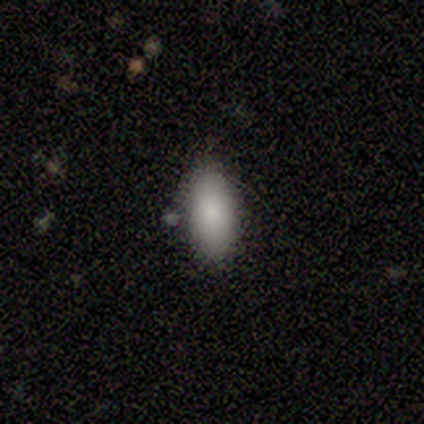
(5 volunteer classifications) This appears to be a smooth galaxy with no disk features (100%) that is in between round and cigar-shaped (100%). Merging: none (100%).